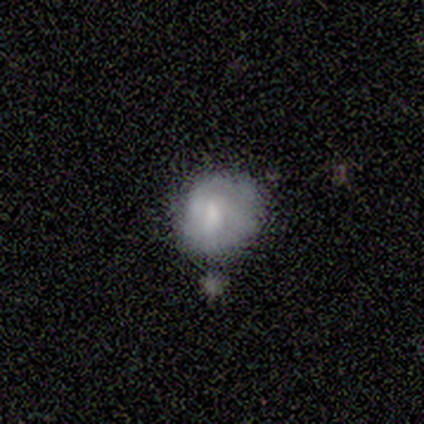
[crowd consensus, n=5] A smooth galaxy with no disk features (60%) that is round (100%). Merging: none (100%).